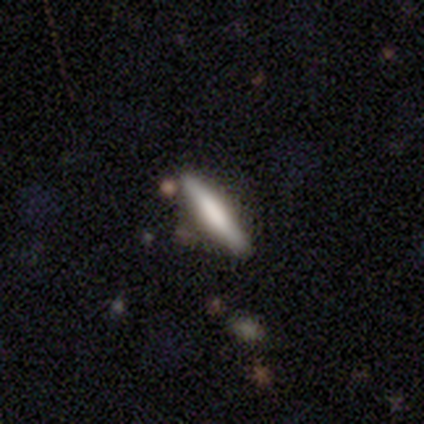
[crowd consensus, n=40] smooth-or-featured: smooth: 72% | featured or disk: 25% | star or artifact: 2%
  how-rounded: cigar-shaped: 90% | in between: 10% | round: 0%
  merging: none: 74% | minor disturbance: 13% | merger: 8% | major disturbance: 5%